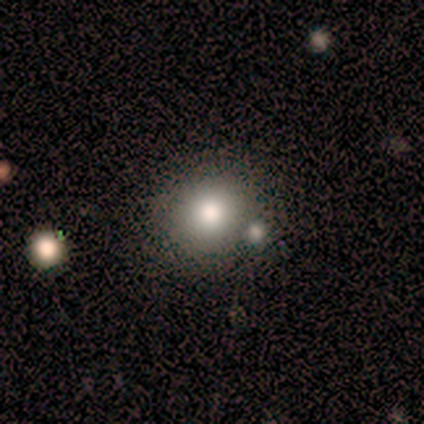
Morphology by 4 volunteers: A smooth galaxy with no disk features (75%) that is round (100%).

Vote fractions:
- Smooth or featured? smooth: 75% / star or artifact: 25% / featured or disk: 0%
- How rounded? round: 100% / in between: 0% / cigar-shaped: 0%
- Merging? none: 67% / merger: 33% / minor disturbance: 0% / major disturbance: 0%